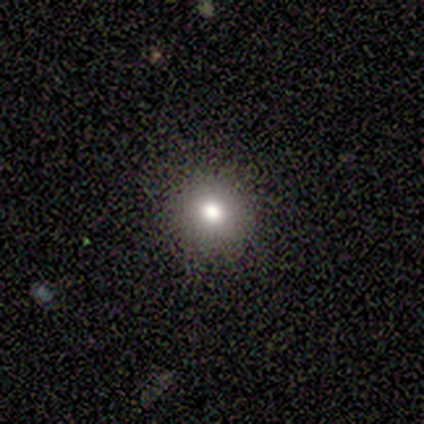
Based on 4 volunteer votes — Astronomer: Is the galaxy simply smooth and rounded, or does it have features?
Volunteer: smooth — 50%, tied with star or artifact at 50%.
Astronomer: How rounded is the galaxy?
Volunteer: round — 100%.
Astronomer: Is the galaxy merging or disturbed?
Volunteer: none — 100%.